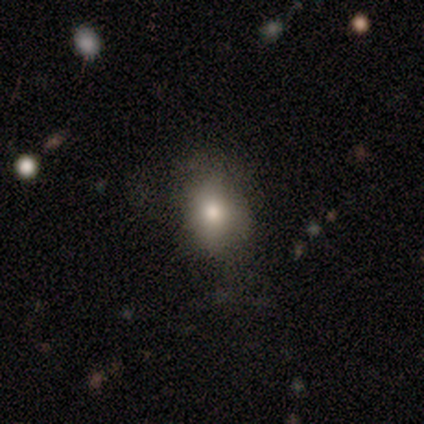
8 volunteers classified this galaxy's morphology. Volunteers were most divided on "merging": none: 75%, minor disturbance: 25%, major disturbance: 0%, merger: 0%. More confident: smooth or featured — smooth (88%); how rounded — in between (86%).